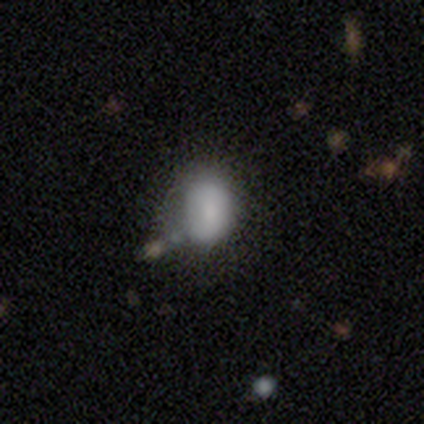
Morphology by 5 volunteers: Overall: smooth (60%; featured or disk 20%). How rounded: in between (100%). Merging: none (50%; minor disturbance 25%).